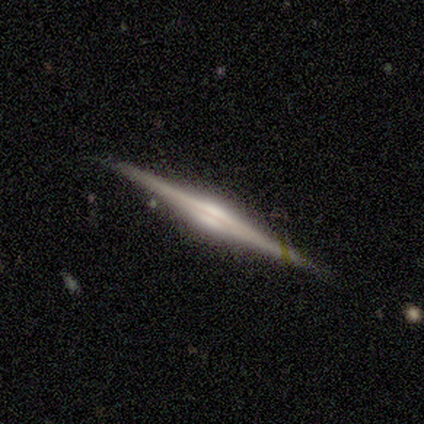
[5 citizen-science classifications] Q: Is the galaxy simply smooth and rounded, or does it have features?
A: featured or disk — 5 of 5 (100%).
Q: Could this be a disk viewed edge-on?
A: yes — 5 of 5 (100%).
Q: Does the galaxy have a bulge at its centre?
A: rounded — 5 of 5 (100%).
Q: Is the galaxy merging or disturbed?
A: none — 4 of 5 (80%).